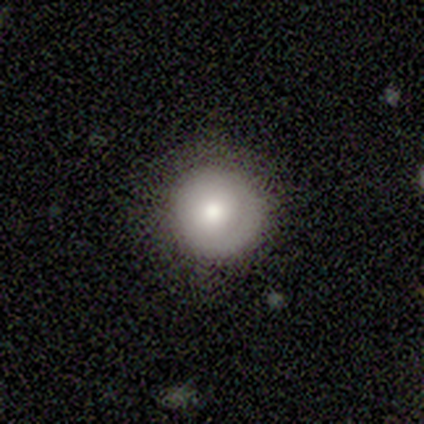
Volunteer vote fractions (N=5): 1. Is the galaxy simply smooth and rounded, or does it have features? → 80% smooth, 20% featured or disk, 0% star or artifact.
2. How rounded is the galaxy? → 100% round, 0% in between, 0% cigar-shaped.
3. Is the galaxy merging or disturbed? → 100% none, 0% minor disturbance, 0% major disturbance, 0% merger.